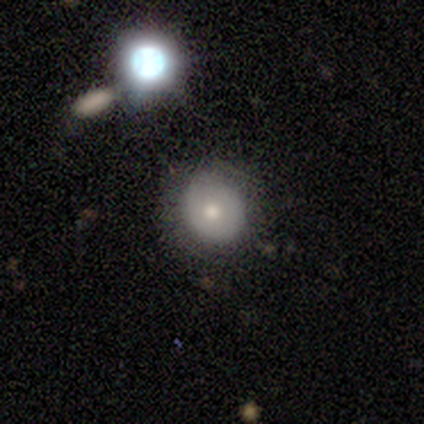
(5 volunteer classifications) A featured or disk galaxy (60%) with no bar (100%), no spiral arms (100%) and a moderate central bulge (100%). Merging: none (80%).